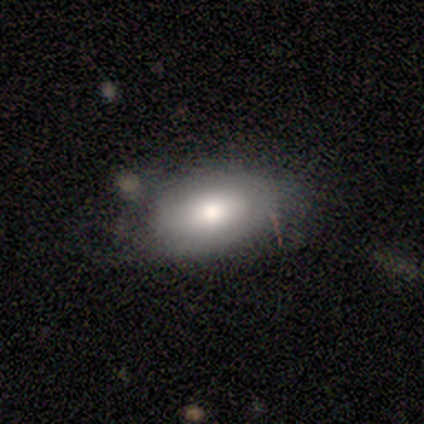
This is likely a smooth galaxy (60%). How rounded: clearly in between (100%). Merging: possibly minor disturbance (50%).